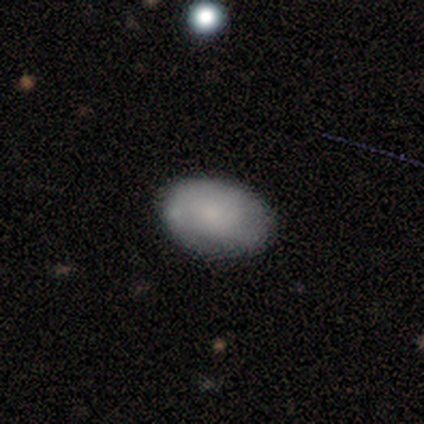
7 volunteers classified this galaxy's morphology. smooth_or_featured: smooth (p=0.86) [alt: featured or disk p=0.14]
how_rounded: in between (p=1.00)
merging: none (p=0.57) [alt: minor disturbance p=0.43]